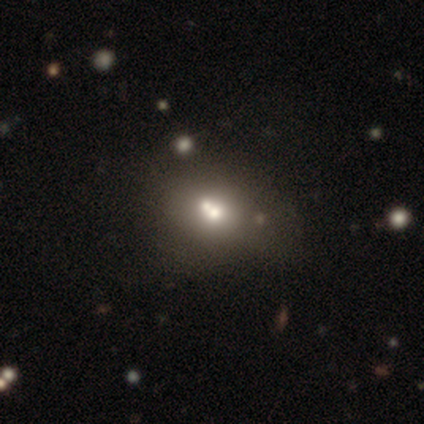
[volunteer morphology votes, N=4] Smooth or featured? smooth (50%)
How rounded? round (50%, tied with in between)
Merging? none (67%)